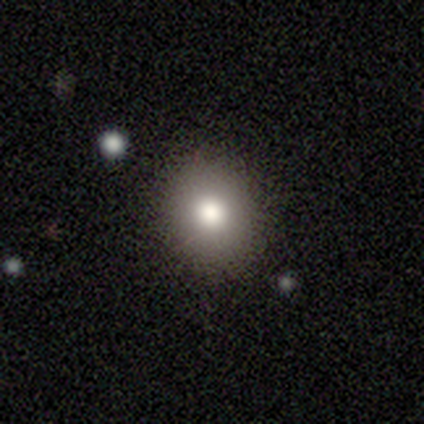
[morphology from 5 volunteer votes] Smooth or featured?
  - smooth: 80% *
  - star or artifact: 20%
  - featured or disk: 0%
How rounded?
  - round: 75% *
  - in between: 25%
  - cigar-shaped: 0%
Merging?
  - none: 100% *
  - minor disturbance: 0%
  - major disturbance: 0%
  - merger: 0%